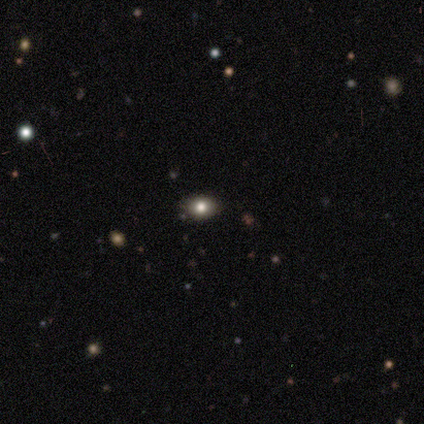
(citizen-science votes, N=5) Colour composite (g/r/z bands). It shows a smooth galaxy with no disk features (60%) that is in between round and cigar-shaped (67%). Merging: none (100%).